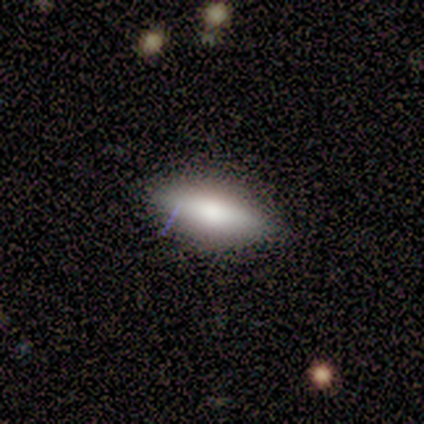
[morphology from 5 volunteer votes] Overall: featured or disk (60%; smooth 40%). Edge-on disk: yes (67%; no 33%). Edge-on bulge: rounded (100%). Merging: none (100%).